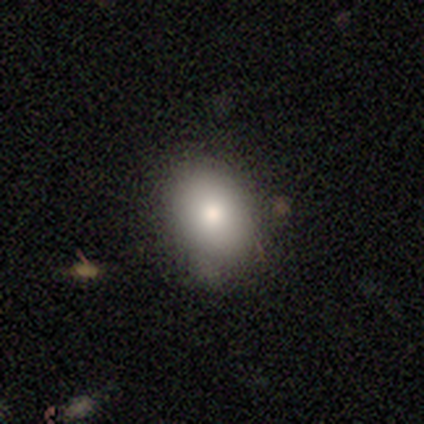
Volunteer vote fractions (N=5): smooth 80%, featured or disk 20%, star or artifact 0%. Down the decision tree: how rounded — round (75%); merging — none (100%).